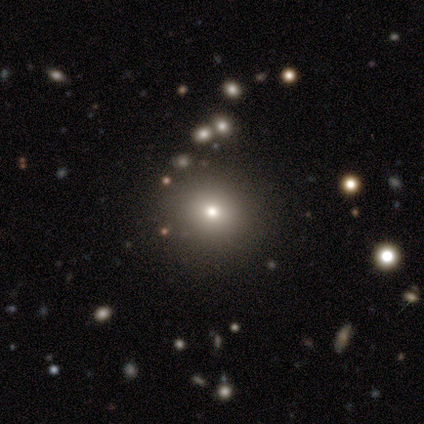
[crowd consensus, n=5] Volunteers were most divided on "smooth or featured": star or artifact: 60%, smooth: 20%, featured or disk: 20%.